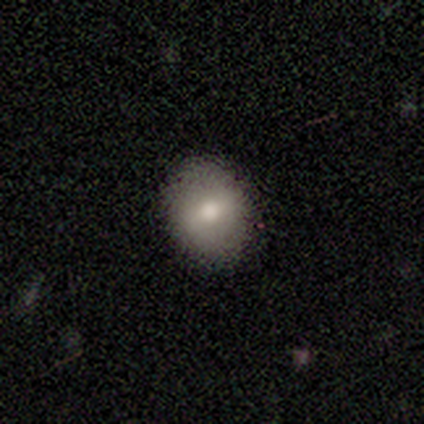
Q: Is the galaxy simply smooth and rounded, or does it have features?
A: smooth — 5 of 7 (71%).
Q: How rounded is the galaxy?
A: in between — 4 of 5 (80%).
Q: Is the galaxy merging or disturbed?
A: none — 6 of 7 (86%).